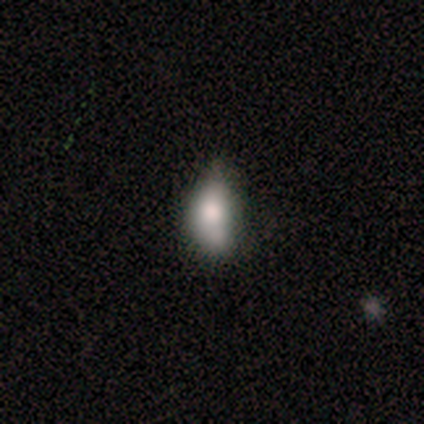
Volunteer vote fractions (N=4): Smooth or featured? 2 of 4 (50%) said star or artifact.